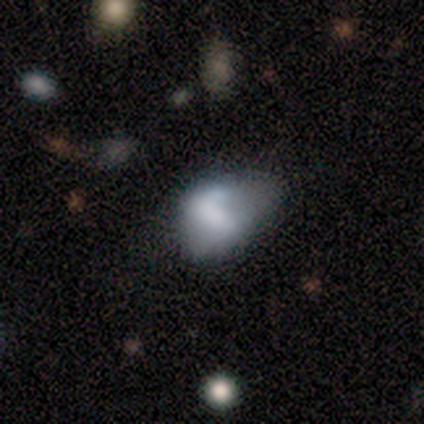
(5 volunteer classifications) Smooth or featured?
  - smooth: 60% *
  - featured or disk: 40%
  - star or artifact: 0%
How rounded?
  - in between: 100% *
  - round: 0%
  - cigar-shaped: 0%
Merging?
  - none: 60% *
  - minor disturbance: 20%
  - major disturbance: 20%
  - merger: 0%